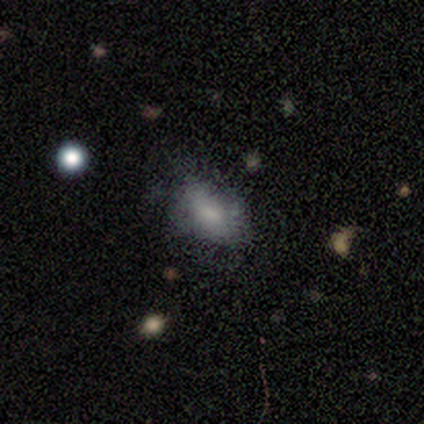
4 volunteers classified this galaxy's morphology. Smooth or featured? 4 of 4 (100%) said smooth. How rounded? 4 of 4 (100%) said in between. Merging? 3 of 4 (75%) said none.